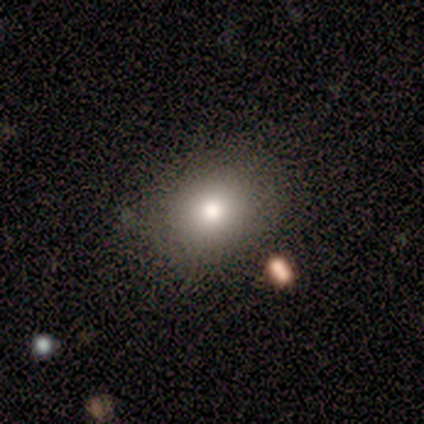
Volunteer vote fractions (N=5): Smooth or featured?
  - smooth: 100% *
  - featured or disk: 0%
  - star or artifact: 0%
How rounded?
  - round: 60% *
  - in between: 40%
  - cigar-shaped: 0%
Merging?
  - none: 80% *
  - minor disturbance: 20%
  - major disturbance: 0%
  - merger: 0%